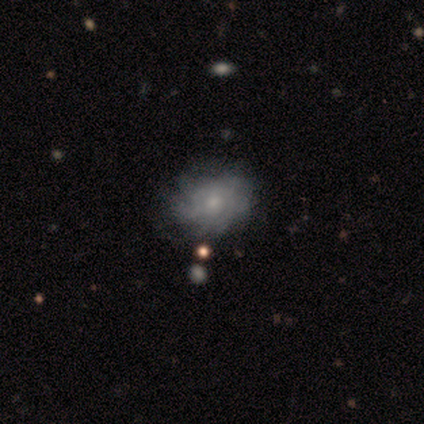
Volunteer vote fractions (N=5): A featured or disk galaxy (80%) with no bar (100%), medium (50%, tied with loose) spiral arms (50%, tied with no) and a small central bulge (75%).

Vote fractions:
- Smooth or featured? featured or disk: 80% / smooth: 20% / star or artifact: 0%
- Edge-on disk? no: 100% / yes: 0%
- Bar? no: 100% / strong: 0% / weak: 0%
- Spiral arms? yes: 50% (tied) / no: 50% (tied)
- Spiral winding? medium: 50% (tied) / loose: 50% (tied) / tight: 0%
- Spiral arm count? can't tell: 100% / 1: 0% / 2: 0% / 3: 0% / 4: 0% / more than 4: 0%
- Bulge size? small: 75% / moderate: 25% / dominant: 0% / large: 0% / none: 0%
- Merging? none: 40% (tied) / minor disturbance: 40% (tied) / major disturbance: 20% / merger: 0%